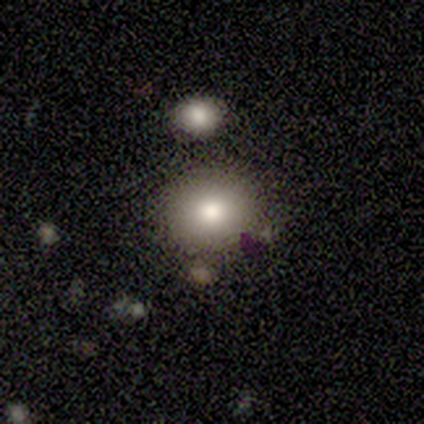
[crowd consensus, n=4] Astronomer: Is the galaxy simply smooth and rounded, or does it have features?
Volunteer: featured or disk — 50%.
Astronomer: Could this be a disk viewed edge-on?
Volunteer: no — 100%.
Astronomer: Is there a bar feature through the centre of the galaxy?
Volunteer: weak — 50%, tied with no at 50%.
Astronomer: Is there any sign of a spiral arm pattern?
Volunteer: yes — 50%, tied with no at 50%.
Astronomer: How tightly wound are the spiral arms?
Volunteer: medium — 100%.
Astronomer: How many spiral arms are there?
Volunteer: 2 — 100%.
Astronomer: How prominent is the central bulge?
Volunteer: moderate — 100%.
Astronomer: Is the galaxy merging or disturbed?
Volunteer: none — 67%.